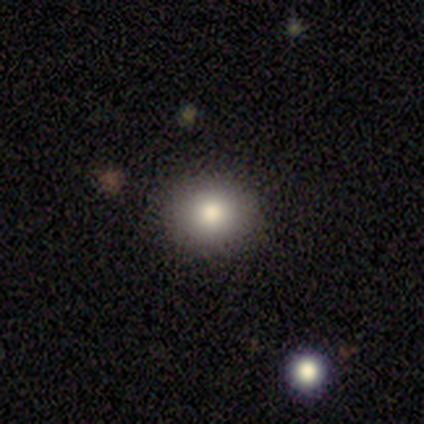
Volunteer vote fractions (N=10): This is clearly a smooth galaxy (80%). How rounded: likely round (75%). Merging: likely none (78%).